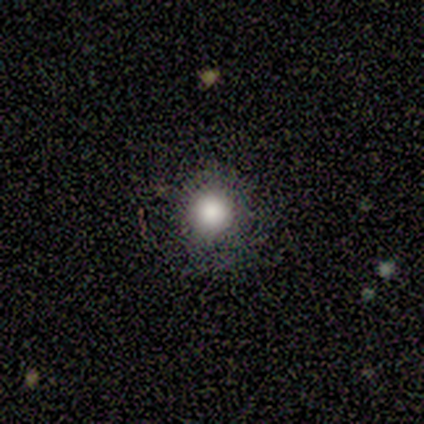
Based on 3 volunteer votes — Smooth or featured? 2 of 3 (67%) said smooth. How rounded? 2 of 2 (100%) said round. Merging? 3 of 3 (100%) said none.